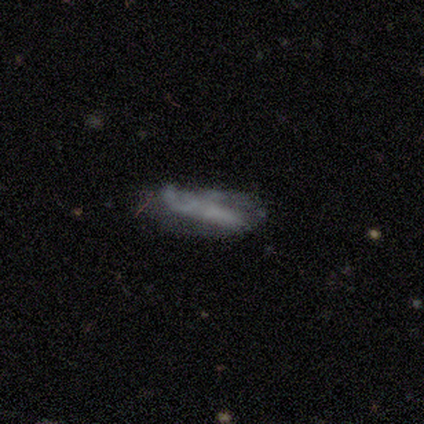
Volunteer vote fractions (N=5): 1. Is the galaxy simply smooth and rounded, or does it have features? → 60% featured or disk, 40% smooth, 0% star or artifact.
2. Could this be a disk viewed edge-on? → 67% no, 33% yes.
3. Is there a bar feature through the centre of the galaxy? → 100% no, 0% strong, 0% weak.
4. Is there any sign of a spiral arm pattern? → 100% no, 0% yes.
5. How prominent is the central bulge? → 100% none, 0% dominant, 0% large, 0% moderate, 0% small.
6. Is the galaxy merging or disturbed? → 40% none, 20% minor disturbance, 20% major disturbance, 20% merger.